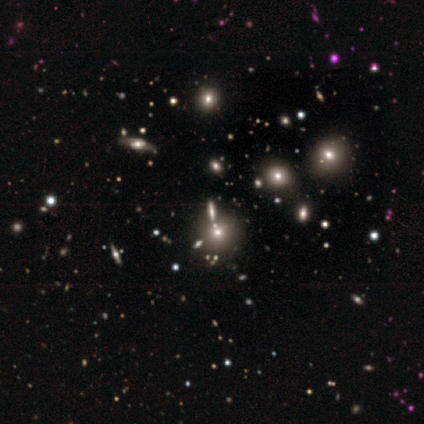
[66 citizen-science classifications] Smooth or featured? 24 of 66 (36%) said star or artifact.